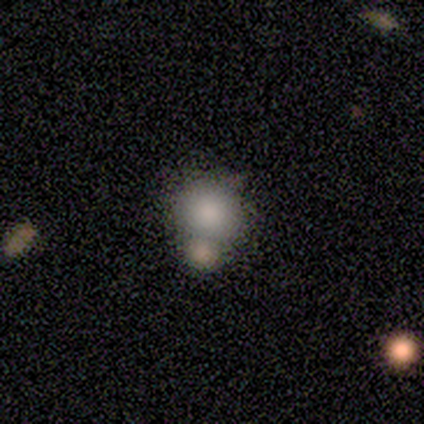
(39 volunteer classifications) Morphology: type=smooth (87%); roundness=round (91%); merging=merger (53%).